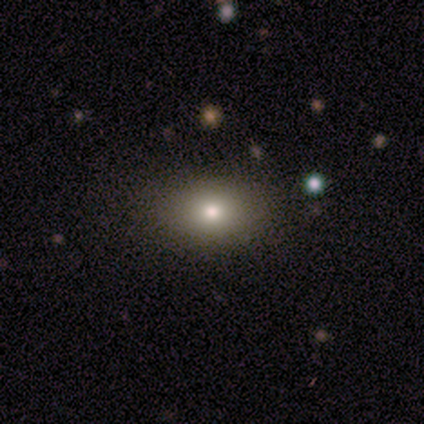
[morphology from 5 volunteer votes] Smooth or featured? 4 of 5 (80%) said smooth. How rounded? 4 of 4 (100%) said in between. Merging? 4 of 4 (100%) said none.